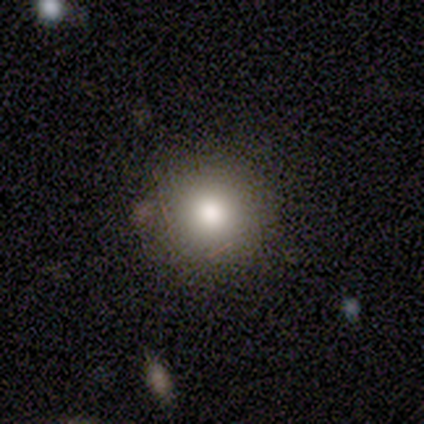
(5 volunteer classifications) smooth 80%, featured or disk 20%, star or artifact 0%. Down the decision tree: how rounded — round (100%); merging — none (80%).